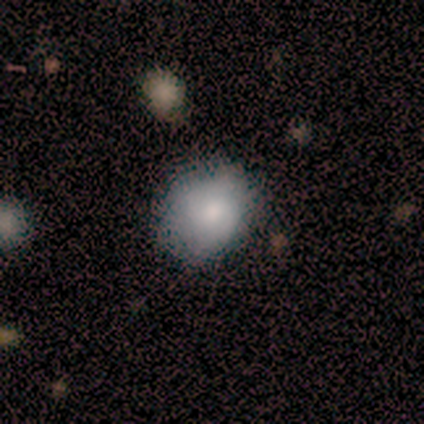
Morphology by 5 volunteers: Q: Smooth or featured?
A: smooth (100%)
Q: How rounded?
A: in between (80%); runner-up: round (20%)
Q: Merging?
A: none (80%); runner-up: minor disturbance (20%)